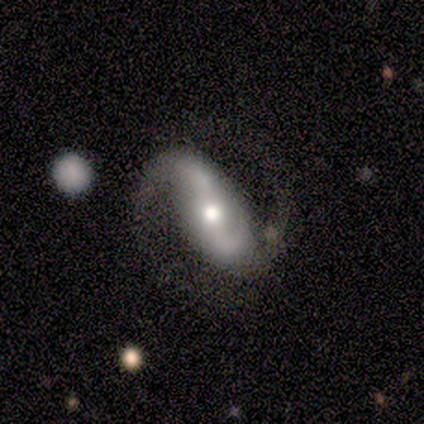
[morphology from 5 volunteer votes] A featured or disk galaxy (60%) with a strong bar (67%), 2 (100%) medium (67%) spiral arms (100%) and a moderate central bulge (67%).

Vote fractions:
- Smooth or featured? featured or disk: 60% / smooth: 20% / star or artifact: 20%
- Edge-on disk? no: 100% / yes: 0%
- Bar? strong: 67% / weak: 33% / no: 0%
- Spiral arms? yes: 100% / no: 0%
- Spiral winding? medium: 67% / loose: 33% / tight: 0%
- Spiral arm count? 2: 100% / 1: 0% / 3: 0% / 4: 0% / more than 4: 0% / can't tell: 0%
- Bulge size? moderate: 67% / small: 33% / dominant: 0% / large: 0% / none: 0%
- Merging? none: 75% / merger: 25% / minor disturbance: 0% / major disturbance: 0%